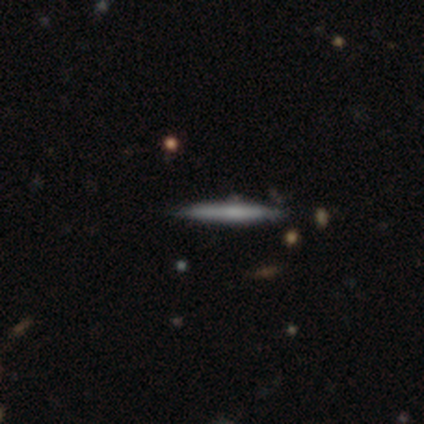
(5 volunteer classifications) smooth-or-featured: featured or disk: 80% | smooth: 20% | star or artifact: 0%
  disk-edge-on: yes: 100% | no: 0%
    edge-on-bulge: none: 75% | rounded: 25% | boxy: 0%
  merging: none: 100% | minor disturbance: 0% | major disturbance: 0% | merger: 0%